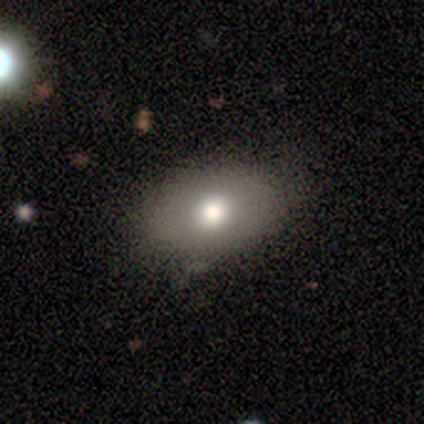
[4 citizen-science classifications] Morphology: type=smooth (50%, tied with featured or disk); roundness=in between (100%); merging=none (50%, tied with minor disturbance).